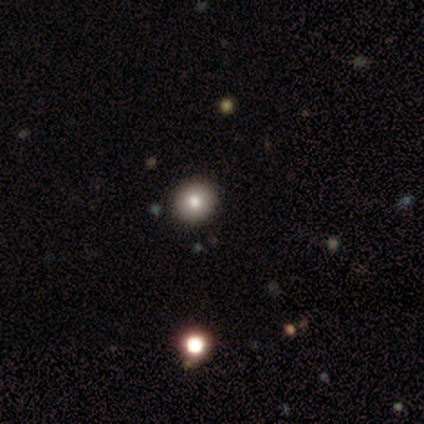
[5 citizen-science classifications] This is clearly a smooth galaxy (80%). How rounded: clearly round (100%). Merging: clearly none (100%).